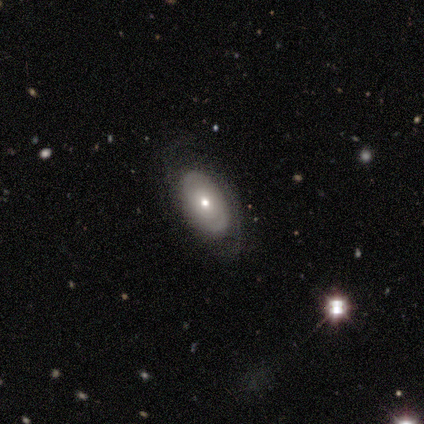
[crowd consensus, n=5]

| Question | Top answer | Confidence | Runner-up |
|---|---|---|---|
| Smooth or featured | featured or disk | 60% | smooth (40%) |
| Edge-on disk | no | 100% | — |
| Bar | no | 100% | — |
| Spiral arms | no | 67% | yes (33%) |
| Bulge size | small | 67% | moderate (33%) |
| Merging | none | 100% | — |